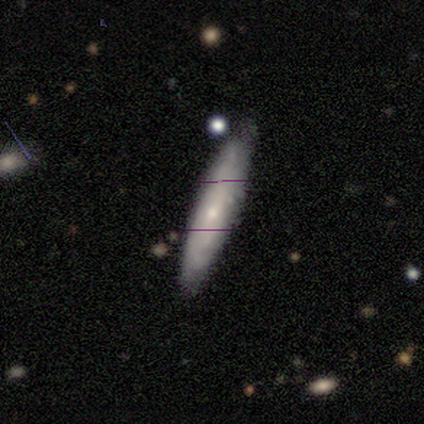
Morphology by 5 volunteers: Smooth or featured: smooth — 60% (featured or disk — 40%)
How rounded: cigar-shaped — 100%
Merging: none — 60% (minor disturbance — 20%)